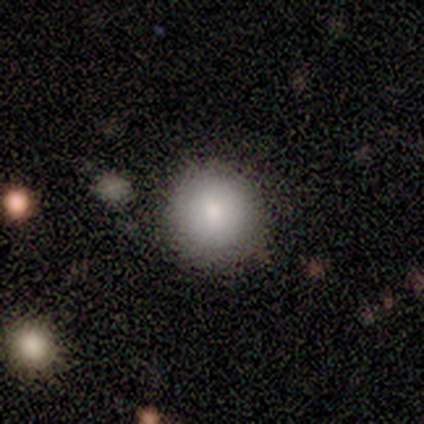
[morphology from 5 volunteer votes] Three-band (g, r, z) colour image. It shows a smooth galaxy with no disk features (60%) that is round (67%). Merging: none (75%).